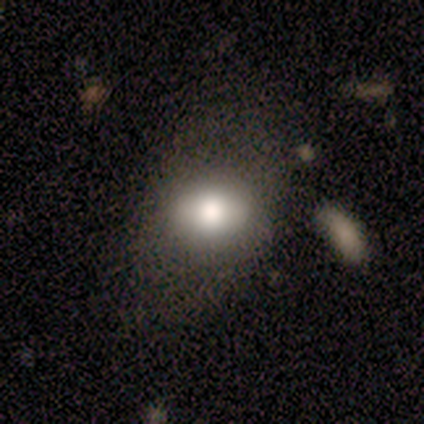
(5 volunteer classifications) Smooth or featured: smooth — 60% (featured or disk — 40%)
How rounded: round — 67% (in between — 33%)
Merging: none — 80% (minor disturbance — 20%)